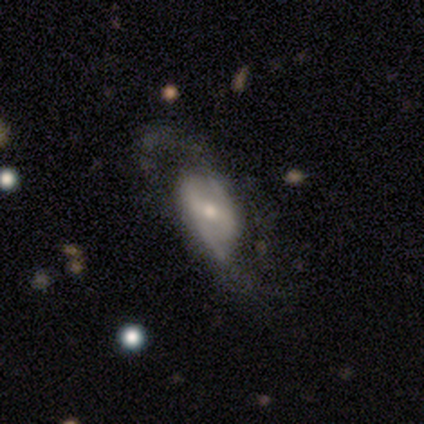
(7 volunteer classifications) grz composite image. It shows a featured or disk galaxy (71%) with no bar (80%), 2 (100%) loose (67%) spiral arms (60%) and a moderate central bulge (60%). Merging: none (67%).